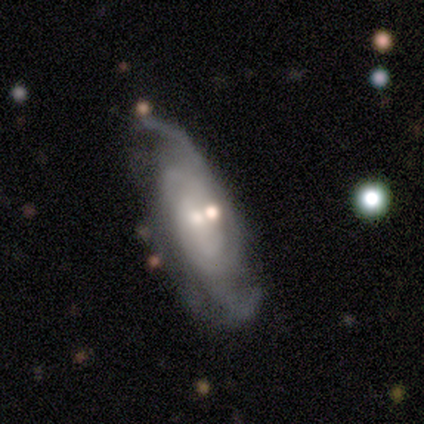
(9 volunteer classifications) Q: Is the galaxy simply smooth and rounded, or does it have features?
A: featured or disk — 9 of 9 (100%).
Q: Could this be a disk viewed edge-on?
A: no — 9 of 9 (100%).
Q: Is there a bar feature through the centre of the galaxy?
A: no — 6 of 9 (67%).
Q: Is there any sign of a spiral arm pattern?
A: yes — 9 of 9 (100%).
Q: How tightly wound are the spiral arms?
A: tight — 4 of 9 (44%, tied with medium).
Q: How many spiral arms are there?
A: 2 — 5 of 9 (56%).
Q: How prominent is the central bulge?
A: small — 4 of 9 (44%).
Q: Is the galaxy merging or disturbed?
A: none — 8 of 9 (89%).